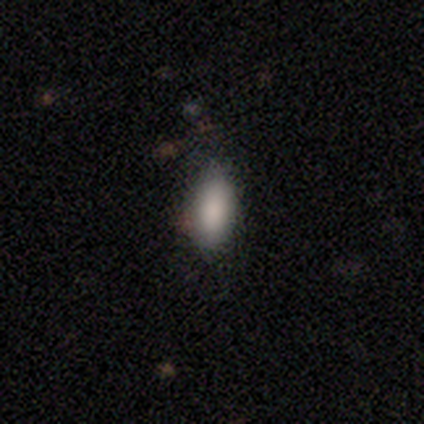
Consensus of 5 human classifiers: A smooth galaxy with no disk features (60%) that is in between round and cigar-shaped (100%). Merging: none (60%).